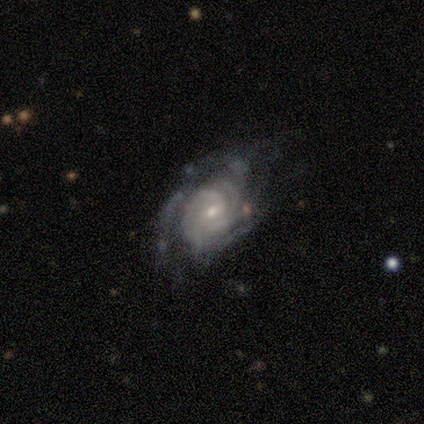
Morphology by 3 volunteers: Volunteers were most divided on "merging" (3-way tie): none: 33%, minor disturbance: 33%, major disturbance: 33%, merger: 0%. More confident: smooth or featured — featured or disk (100%); edge-on disk — no (100%); spiral arms — yes (100%); spiral winding — tight (100%); spiral arm count — can't tell (100%); bar — weak (67%); bulge size — small (67%).